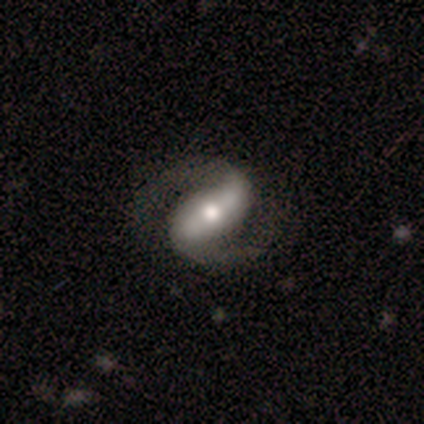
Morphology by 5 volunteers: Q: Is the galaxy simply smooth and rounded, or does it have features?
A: featured or disk — 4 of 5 (80%).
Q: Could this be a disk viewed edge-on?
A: no — 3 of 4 (75%).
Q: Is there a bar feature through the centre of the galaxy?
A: strong — 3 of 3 (100%).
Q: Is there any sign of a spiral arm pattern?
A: yes — 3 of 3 (100%).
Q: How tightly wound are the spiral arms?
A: medium — 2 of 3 (67%).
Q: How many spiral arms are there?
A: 2 — 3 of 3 (100%).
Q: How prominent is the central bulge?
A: small — 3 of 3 (100%).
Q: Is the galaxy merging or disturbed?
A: none — 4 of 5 (80%).